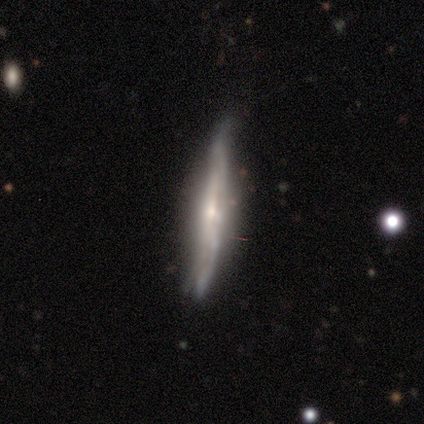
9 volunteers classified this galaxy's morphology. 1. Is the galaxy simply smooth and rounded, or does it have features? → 100% featured or disk, 0% smooth, 0% star or artifact.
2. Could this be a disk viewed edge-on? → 89% yes, 11% no.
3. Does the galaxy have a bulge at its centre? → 62% rounded, 25% none, 12% boxy.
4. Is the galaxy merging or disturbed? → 67% minor disturbance, 33% none, 0% major disturbance, 0% merger.